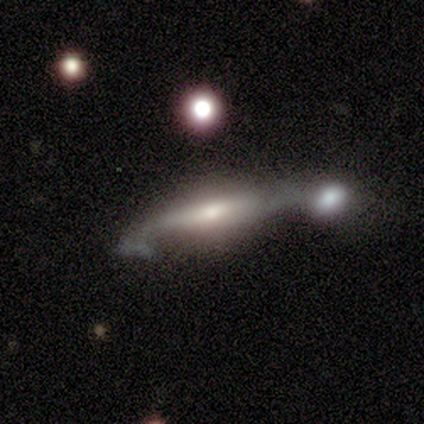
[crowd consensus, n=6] Morphology: type=featured or disk (83%); edge-on=yes (100%); edge-on bulge=rounded (100%); merging=none (33%, tied with merger).